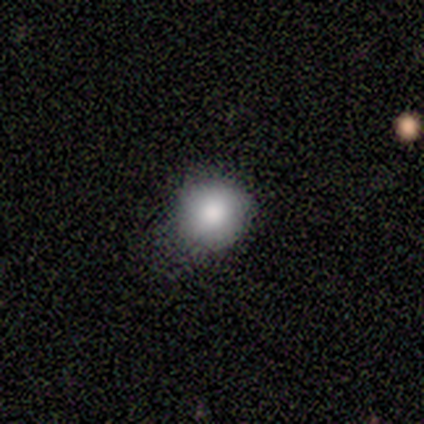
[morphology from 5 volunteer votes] Overall: smooth (60%; star or artifact 40%). How rounded: round (100%). Merging: none (67%; minor disturbance 33%).